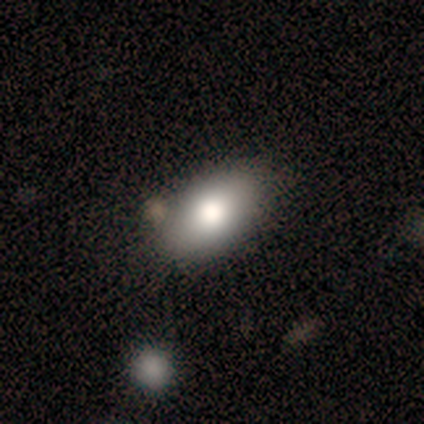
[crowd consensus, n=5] This is marginally a smooth galaxy (40%, tied with featured or disk). How rounded: clearly in between (100%). Merging: clearly none (100%).